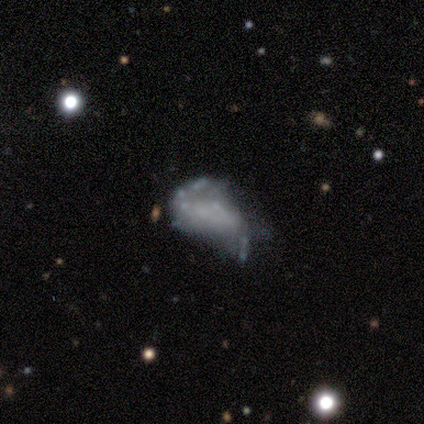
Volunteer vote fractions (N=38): Q: Smooth or featured?
A: featured or disk (58%); runner-up: smooth (26%)
Q: Edge-on disk?
A: no (95%); runner-up: yes (5%)
Q: Bar?
A: no (86%); runner-up: strong (10%)
Q: Spiral arms?
A: no (57%); runner-up: yes (43%)
Q: Bulge size?
A: none (81%); runner-up: small (10%)
Q: Merging?
A: minor disturbance (41%); runner-up: none (38%)